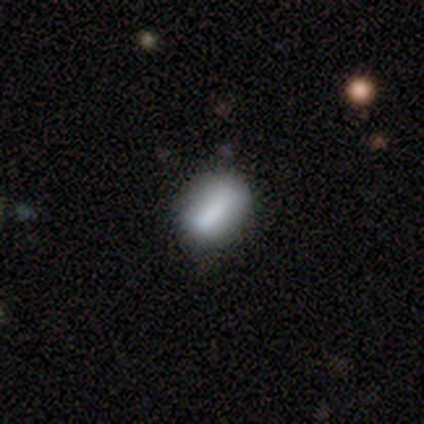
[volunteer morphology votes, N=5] Smooth or featured? smooth (60%)
How rounded? in between (67%)
Merging? none (50%)